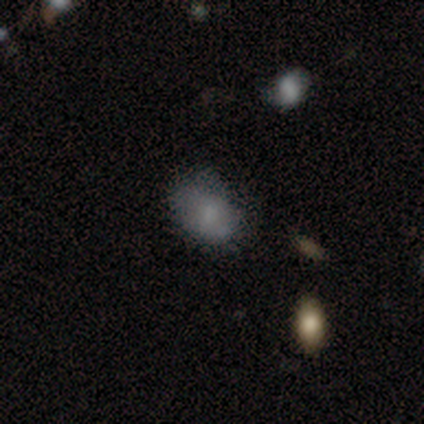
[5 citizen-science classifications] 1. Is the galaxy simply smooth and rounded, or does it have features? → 80% smooth, 20% featured or disk, 0% star or artifact.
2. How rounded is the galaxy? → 50% round (tied), 50% in between (tied), 0% cigar-shaped.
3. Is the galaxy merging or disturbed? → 60% none, 20% minor disturbance, 20% major disturbance, 0% merger.